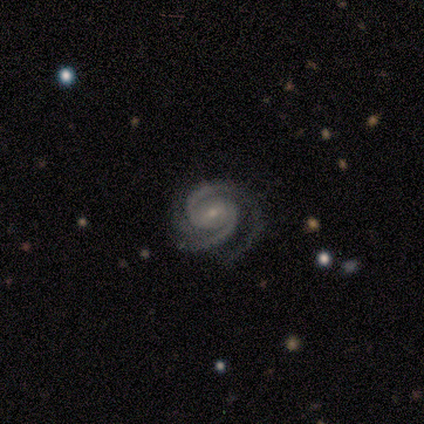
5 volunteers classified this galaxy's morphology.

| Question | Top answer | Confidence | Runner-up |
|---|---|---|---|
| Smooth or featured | featured or disk | 80% | smooth (20%) |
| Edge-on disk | no | 100% | — |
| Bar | weak | 50% | tied: no (50%) |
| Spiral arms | yes | 100% | — |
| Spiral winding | tight | 75% | medium (25%) |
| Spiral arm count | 2 | 75% | 3 (25%) |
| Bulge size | small | 100% | — |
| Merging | none | 100% | — |